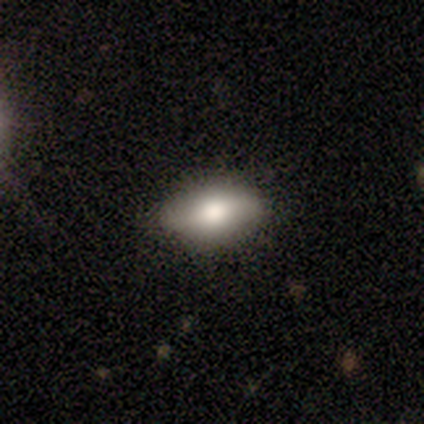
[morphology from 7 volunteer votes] Overall: smooth (86%). How rounded: in between (100%). Merging: none (83%).